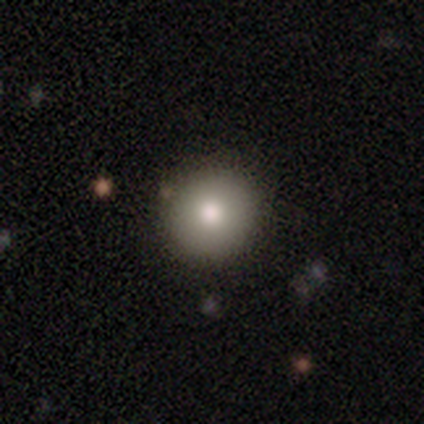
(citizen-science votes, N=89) A smooth galaxy with no disk features (74%) that is round (95%).

Vote fractions:
- Smooth or featured? smooth: 74% / featured or disk: 15% / star or artifact: 11%
- How rounded? round: 95% / in between: 5% / cigar-shaped: 0%
- Merging? none: 90% / minor disturbance: 5% / major disturbance: 3% / merger: 3%